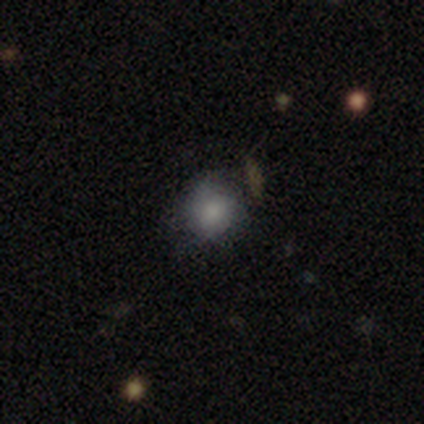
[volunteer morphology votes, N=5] smooth_or_featured: smooth (p=1.00)
how_rounded: round (p=0.80) [alt: in between p=0.20]
merging: minor disturbance (p=0.60) [alt: none p=0.40]